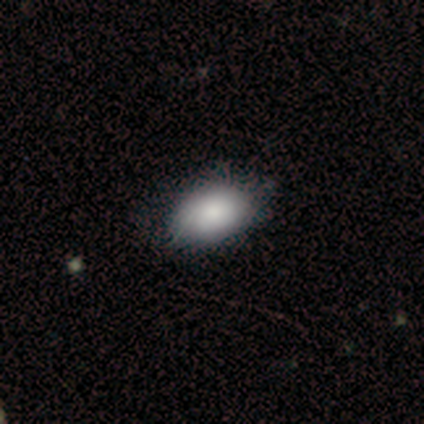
A smooth galaxy with no disk features (60%) that is in between round and cigar-shaped (100%). Merging: none (75%).